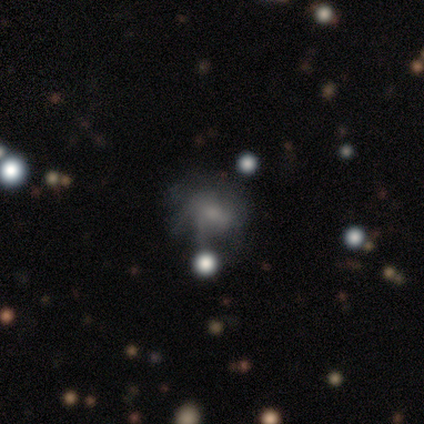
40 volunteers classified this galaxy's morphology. Smooth or featured? 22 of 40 (55%) said featured or disk. Edge-on disk? 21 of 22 (95%) said no. Bar? 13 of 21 (62%) said no. Spiral arms? 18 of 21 (86%) said yes. Spiral winding? 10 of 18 (56%) said medium. Spiral arm count? 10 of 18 (56%) said can't tell. Bulge size? 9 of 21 (43%) said small. Merging? 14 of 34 (41%) said none.